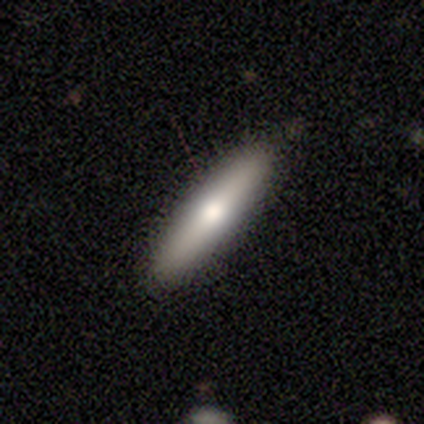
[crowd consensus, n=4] Smooth or featured?
  - featured or disk: 75% *
  - smooth: 25%
  - star or artifact: 0%
Edge-on disk?
  - yes: 100% *
  - no: 0%
Edge-on bulge?
  - rounded: 100% *
  - boxy: 0%
  - none: 0%
Merging?
  - none: 75% *
  - merger: 25%
  - minor disturbance: 0%
  - major disturbance: 0%